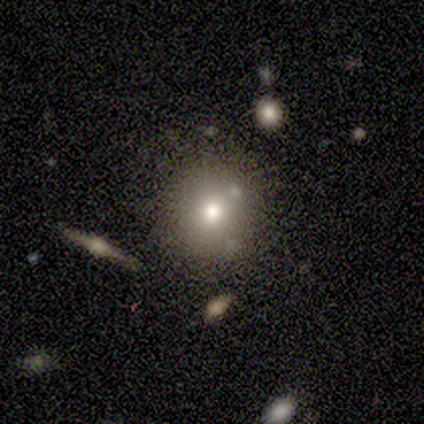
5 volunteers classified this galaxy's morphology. A smooth galaxy with no disk features (80%) that is round (100%). Merging: none (100%).